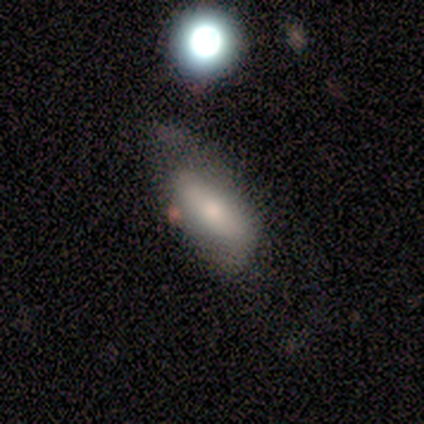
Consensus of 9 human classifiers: Smooth or featured? smooth (67%)
How rounded? in between (100%)
Merging? none (56%)